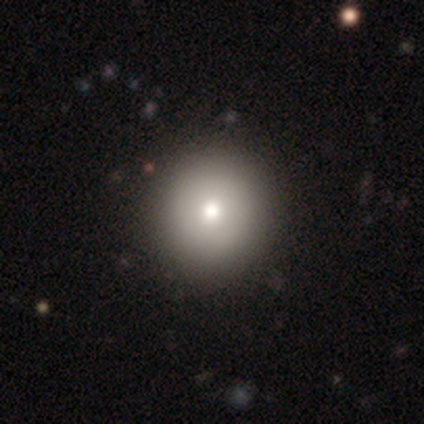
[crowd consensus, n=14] This appears to be a smooth galaxy with no disk features (71%) that is round (100%). Merging: none (91%).